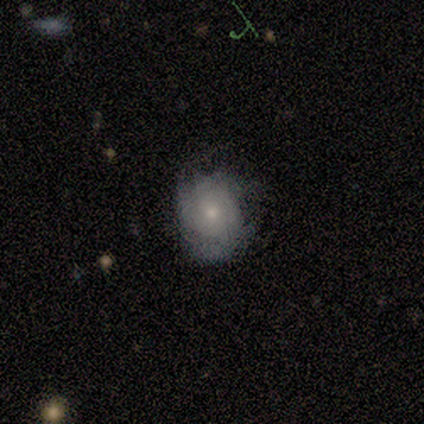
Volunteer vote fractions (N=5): Smooth or featured? featured or disk (80%)
Edge-on disk? no (100%)
Bar? no (100%)
Spiral arms? yes (75%)
Spiral winding? tight (67%)
Spiral arm count? 3 (33%, tied with 4 and can't tell)
Bulge size? small (75%)
Merging? none (100%)